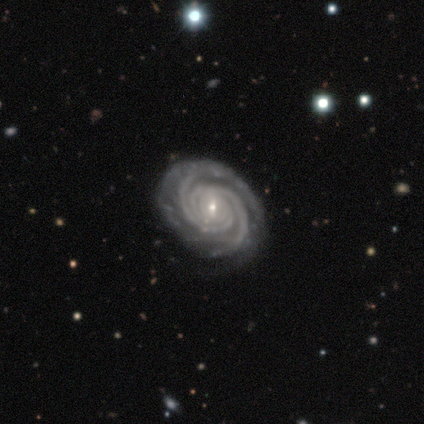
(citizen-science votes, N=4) Smooth or featured?
  - featured or disk: 100% *
  - smooth: 0%
  - star or artifact: 0%
Edge-on disk?
  - no: 100% *
  - yes: 0%
Bar?
  - weak: 50% * (tied)
  - no: 50% * (tied)
  - strong: 0%
Spiral arms?
  - yes: 100% *
  - no: 0%
Spiral winding?
  - tight: 100% *
  - medium: 0%
  - loose: 0%
Spiral arm count?
  - 2: 75% *
  - 3: 25%
  - 1: 0%
  - 4: 0%
  - more than 4: 0%
  - can't tell: 0%
Bulge size?
  - small: 100% *
  - dominant: 0%
  - large: 0%
  - moderate: 0%
  - none: 0%
Merging?
  - none: 100% *
  - minor disturbance: 0%
  - major disturbance: 0%
  - merger: 0%